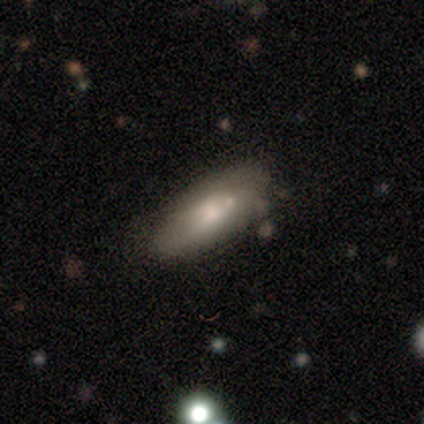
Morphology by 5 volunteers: smooth_or_featured: smooth (p=0.40) [tied with: featured or disk p=0.40]
how_rounded: in between (p=0.50) [tied with: cigar-shaped p=0.50]
merging: none (p=0.50) [tied with: minor disturbance p=0.50]